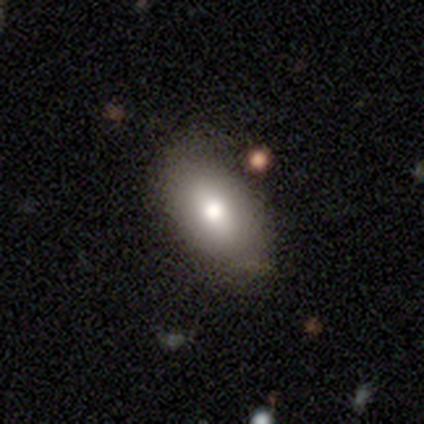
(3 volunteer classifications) This is likely a smooth galaxy (67%). How rounded: clearly in between (100%). Merging: clearly none (100%).